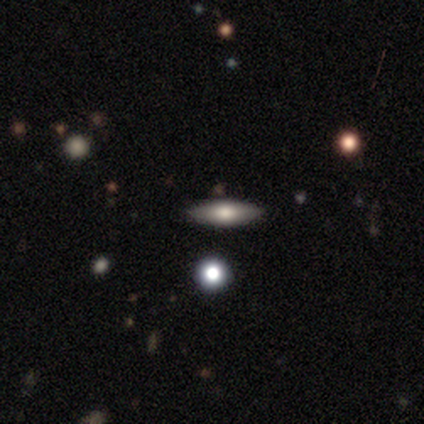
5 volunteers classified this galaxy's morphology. A smooth galaxy with no disk features (60%) that is cigar-shaped (67%).

Vote fractions:
- Smooth or featured? smooth: 60% / featured or disk: 40% / star or artifact: 0%
- How rounded? cigar-shaped: 67% / in between: 33% / round: 0%
- Merging? none: 80% / major disturbance: 20% / minor disturbance: 0% / merger: 0%